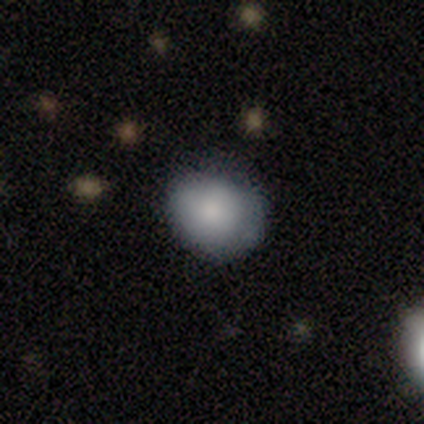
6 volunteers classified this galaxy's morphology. Smooth or featured? smooth (100%)
How rounded? round (50%, tied with in between)
Merging? none (83%)